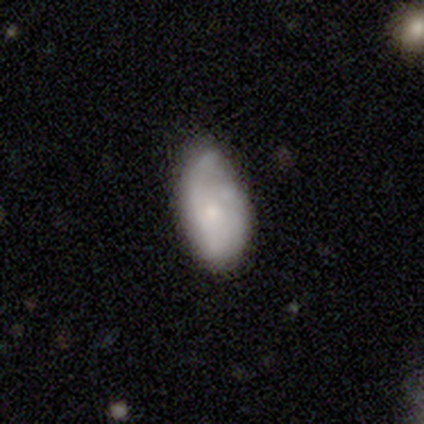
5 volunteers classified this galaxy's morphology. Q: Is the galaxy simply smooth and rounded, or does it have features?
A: smooth — 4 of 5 (80%).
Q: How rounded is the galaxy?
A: in between — 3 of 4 (75%).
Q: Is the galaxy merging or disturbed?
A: minor disturbance — 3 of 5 (60%).